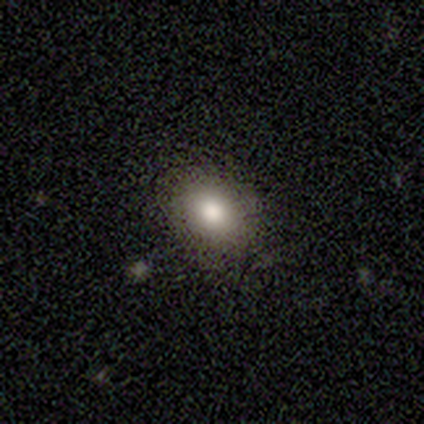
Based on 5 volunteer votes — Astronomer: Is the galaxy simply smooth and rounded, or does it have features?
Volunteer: smooth — 60% (runner-up: star or artifact, 40%).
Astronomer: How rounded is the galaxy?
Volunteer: in between — 100%.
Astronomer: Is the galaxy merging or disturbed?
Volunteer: none — 100%.